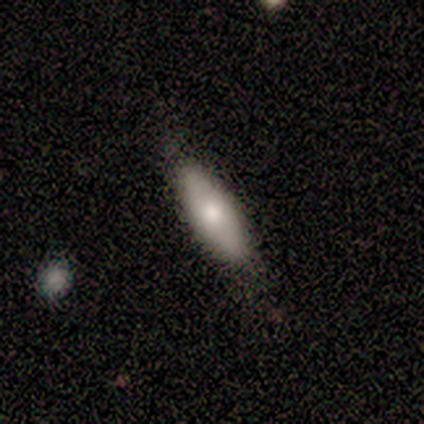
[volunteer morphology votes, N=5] Smooth or featured? 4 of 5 (80%) said smooth. How rounded? 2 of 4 (50%, tied with cigar-shaped) said in between. Merging? 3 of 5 (60%) said none.